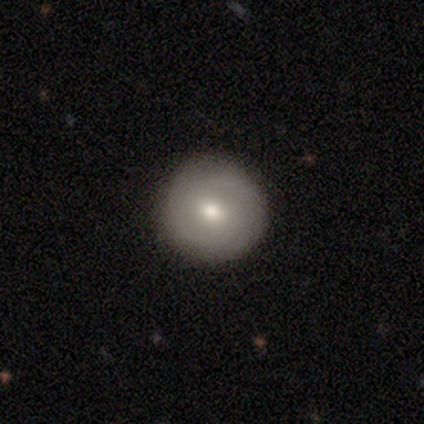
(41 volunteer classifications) Smooth or featured: featured or disk — 54% (smooth — 37%)
Edge-on disk: no — 95% (yes — 5%)
Bar: no — 67% (weak — 29%)
Spiral arms: yes — 67% (no — 33%)
Spiral winding: tight — 57% (medium — 36%)
Spiral arm count: 2 — 86% (1 — 7%)
Bulge size: moderate — 67% (large — 14%)
Merging: none — 92% (minor disturbance — 8%)